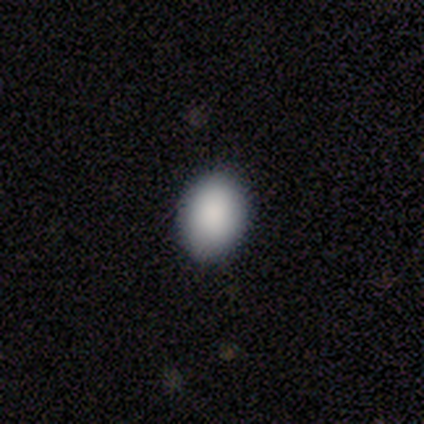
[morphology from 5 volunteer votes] Volunteers were most divided on "how rounded": in between: 80%, round: 20%, cigar-shaped: 0%. More confident: smooth or featured — smooth (100%); merging — none (100%).